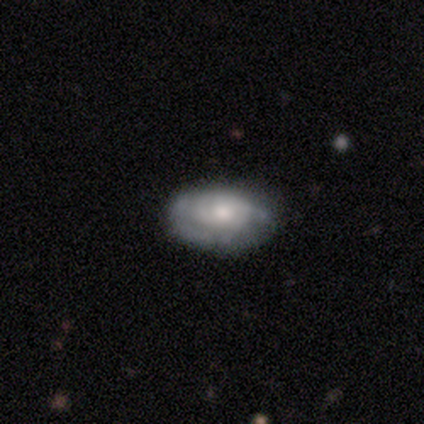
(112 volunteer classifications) Q: Smooth or featured?
A: featured or disk (73%); runner-up: smooth (23%)
Q: Edge-on disk?
A: no (99%); runner-up: yes (1%)
Q: Bar?
A: no (83%); runner-up: weak (17%)
Q: Spiral arms?
A: yes (72%); runner-up: no (28%)
Q: Spiral winding?
A: tight (74%); runner-up: medium (22%)
Q: Spiral arm count?
A: can't tell (48%); runner-up: 2 (29%)
Q: Bulge size?
A: moderate (67%); runner-up: small (21%)
Q: Merging?
A: none (73%); runner-up: minor disturbance (21%)